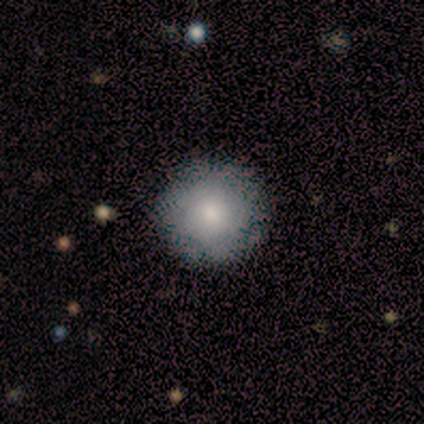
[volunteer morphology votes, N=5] Smooth or featured? smooth (100%)
How rounded? round (100%)
Merging? none (80%)